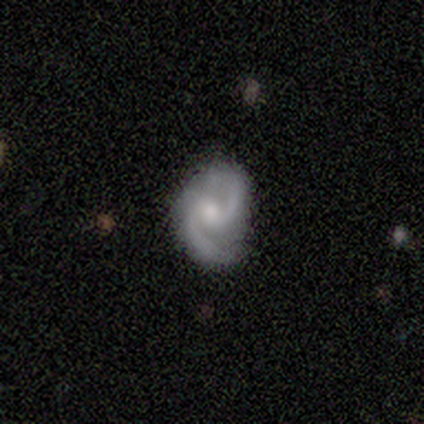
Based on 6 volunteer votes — Smooth or featured: featured or disk — 100%
Edge-on disk: no — 100%
Bar: weak — 50% (no — 33%)
Spiral arms: yes — 100%
Spiral winding: medium — 50% (loose — 33%)
Spiral arm count: 2 — 100%
Bulge size: moderate — 50% (tied with small — 50%)
Merging: none — 83% (minor disturbance — 17%)